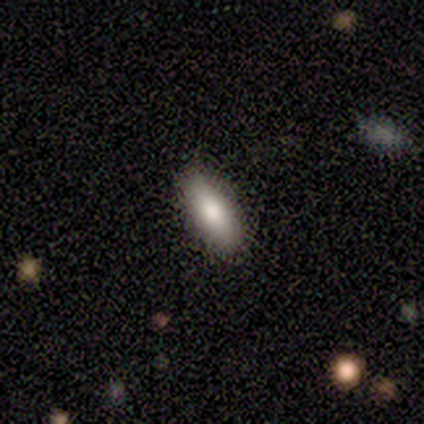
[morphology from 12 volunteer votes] This is clearly a smooth galaxy (100%). How rounded: possibly in between (58%). Merging: likely none (75%).